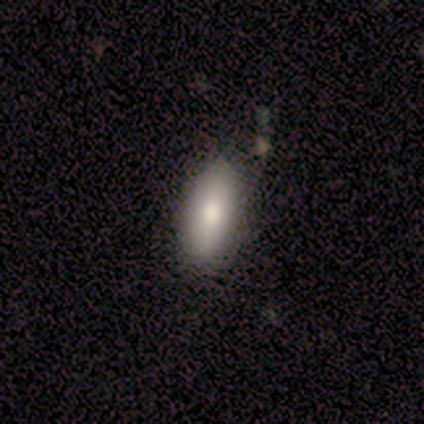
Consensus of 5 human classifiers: This appears to be a smooth galaxy with no disk features (100%) that is cigar-shaped (60%). Merging: none (80%).